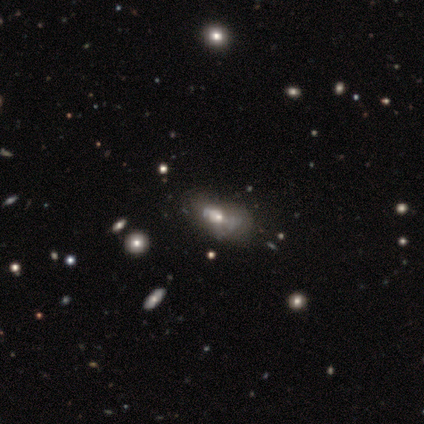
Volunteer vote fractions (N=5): smooth_or_featured: featured or disk (p=0.80) [alt: star or artifact p=0.20]
disk_edge_on: no (p=1.00)
bar: no (p=1.00)
has_spiral_arms: no (p=1.00)
bulge_size: small (p=0.50) [alt: large p=0.25]
merging: minor disturbance (p=0.50) [alt: major disturbance p=0.25]